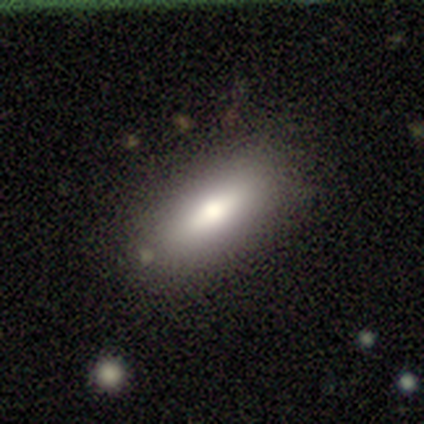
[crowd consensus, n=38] This is likely a smooth galaxy (63%). How rounded: likely in between (75%). Merging: likely none (78%).